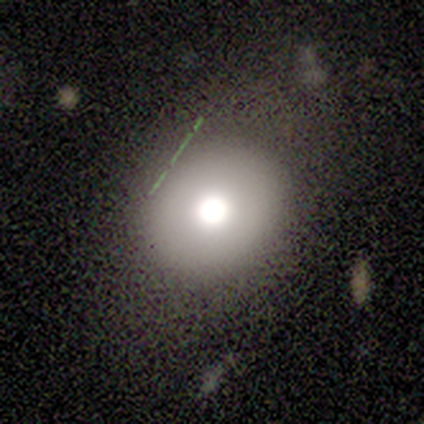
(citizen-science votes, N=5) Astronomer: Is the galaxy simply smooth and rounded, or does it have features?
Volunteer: featured or disk — 60%.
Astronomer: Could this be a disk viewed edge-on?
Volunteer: no — 67%.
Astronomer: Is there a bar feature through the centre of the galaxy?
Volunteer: no — 100%.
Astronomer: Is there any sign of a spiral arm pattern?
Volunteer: no — 100%.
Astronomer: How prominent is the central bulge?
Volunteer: dominant — 50%, tied with moderate at 50%.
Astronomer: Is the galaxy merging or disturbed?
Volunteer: none — 50%.